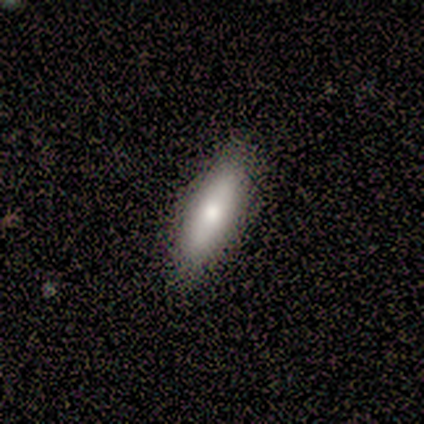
A smooth galaxy with no disk features (80%) that is in between round and cigar-shaped (50%, tied with cigar-shaped). Merging: none (100%).